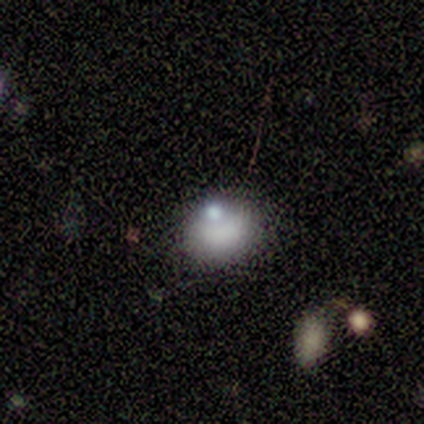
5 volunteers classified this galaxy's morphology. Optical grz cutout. It shows a smooth galaxy with no disk features (100%) that is in between round and cigar-shaped (60%). Merging: none (80%).